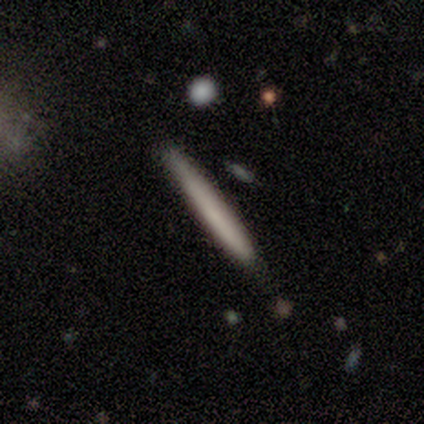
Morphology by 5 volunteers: smooth_or_featured: smooth (p=0.80) [alt: featured or disk p=0.20]
how_rounded: cigar-shaped (p=1.00)
merging: none (p=1.00)